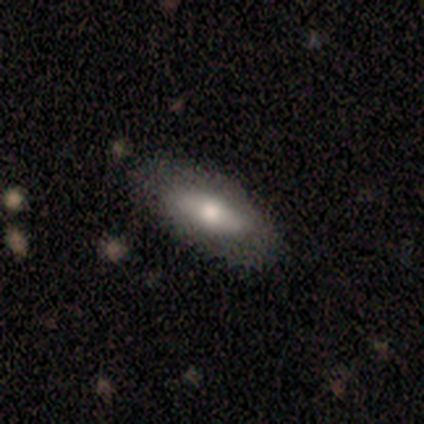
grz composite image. It shows a smooth galaxy with no disk features (100%) that is in between round and cigar-shaped (60%). Merging: none (100%).